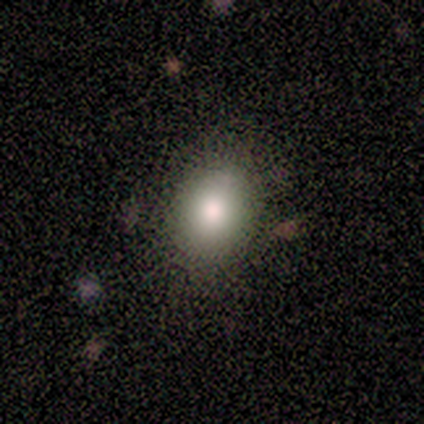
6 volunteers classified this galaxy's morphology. Overall: smooth (83%). How rounded: in between (80%). Merging: none (80%).